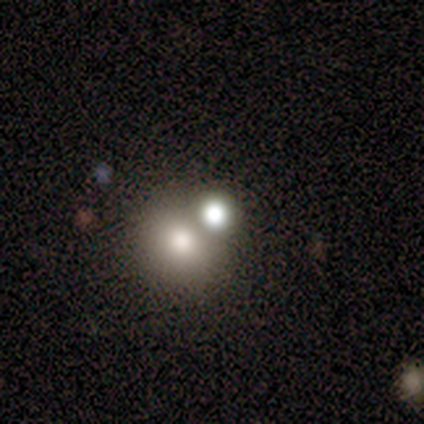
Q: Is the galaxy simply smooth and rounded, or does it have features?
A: smooth — 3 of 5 (60%).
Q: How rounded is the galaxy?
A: in between — 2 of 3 (67%).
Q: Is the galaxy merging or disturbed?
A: merger — 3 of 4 (75%).